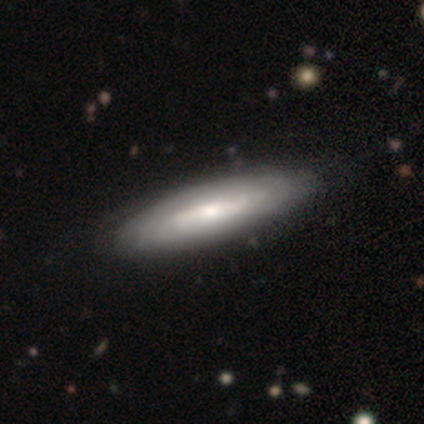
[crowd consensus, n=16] A featured or disk galaxy (75%) with no bar (43%), tight (75%) spiral arms (57%) and a moderate central bulge (43%, tied with small). Merging: none (100%).